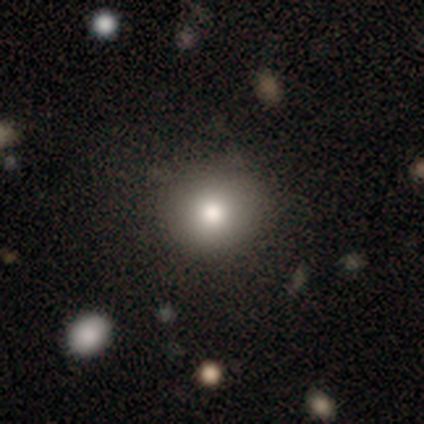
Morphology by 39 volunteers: smooth 69%, star or artifact 18%, featured or disk 13%. Down the decision tree: how rounded — round (100%); merging — none (94%).